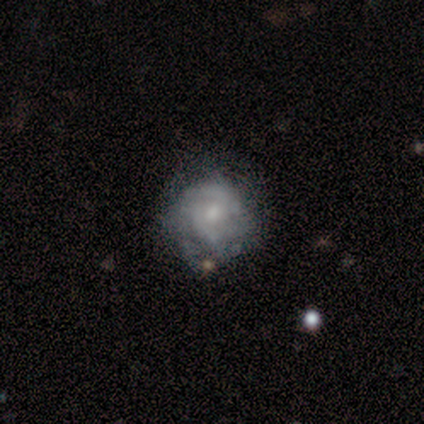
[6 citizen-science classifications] Smooth or featured? featured or disk (83%)
Edge-on disk? no (100%)
Bar? no (80%)
Spiral arms? yes (60%)
Spiral winding? tight (100%)
Spiral arm count? can't tell (67%)
Bulge size? moderate (60%)
Merging? none (83%)